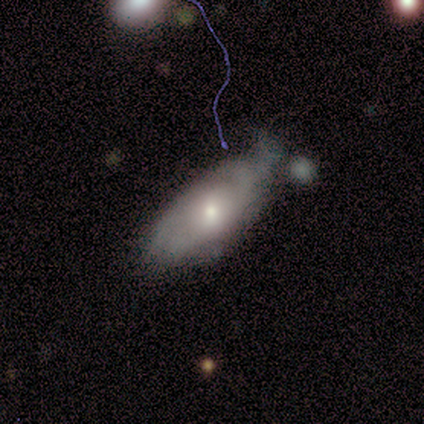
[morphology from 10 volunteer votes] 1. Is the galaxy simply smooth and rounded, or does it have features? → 60% smooth, 40% featured or disk, 0% star or artifact.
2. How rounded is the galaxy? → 100% in between, 0% round, 0% cigar-shaped.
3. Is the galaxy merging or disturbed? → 50% none, 40% minor disturbance, 10% major disturbance, 0% merger.